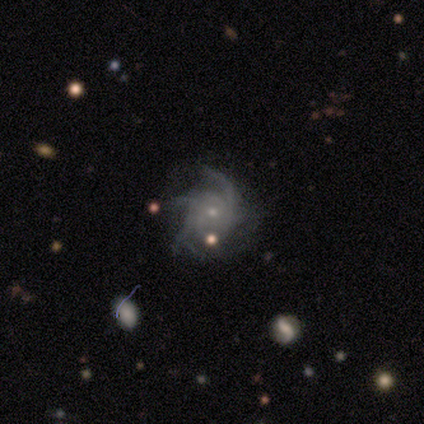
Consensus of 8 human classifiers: Morphology: type=featured or disk (75%); edge-on=no (100%); bar=no (100%); spiral arms=yes (100%); winding=tight (50%); arm count=more than 4 (50%); bulge=small (50%); merging=none (33%, tied with minor disturbance and major disturbance).